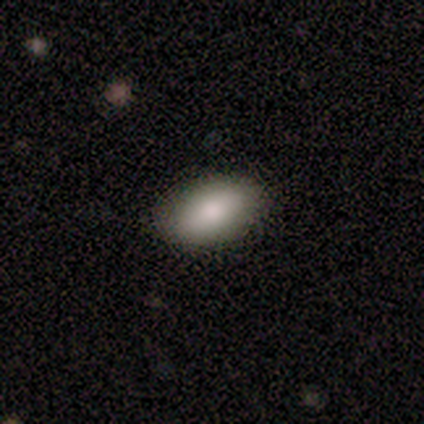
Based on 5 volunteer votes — A smooth galaxy with no disk features (80%) that is in between round and cigar-shaped (100%). Merging: none (100%).